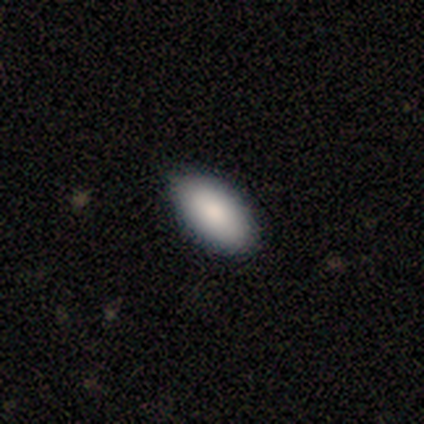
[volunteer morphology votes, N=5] A smooth galaxy with no disk features (100%) that is in between round and cigar-shaped (100%).

Vote fractions:
- Smooth or featured? smooth: 100% / featured or disk: 0% / star or artifact: 0%
- How rounded? in between: 100% / round: 0% / cigar-shaped: 0%
- Merging? none: 100% / minor disturbance: 0% / major disturbance: 0% / merger: 0%